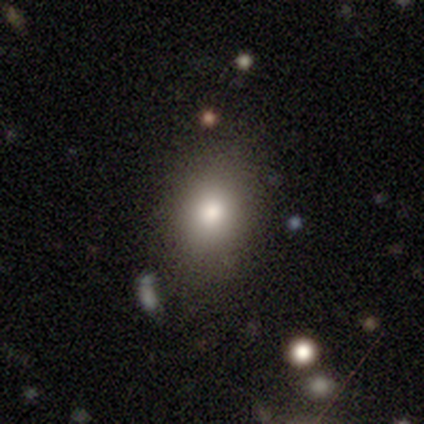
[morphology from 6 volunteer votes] Smooth or featured? 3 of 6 (50%) said smooth. How rounded? 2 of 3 (67%) said in between. Merging? 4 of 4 (100%) said none.